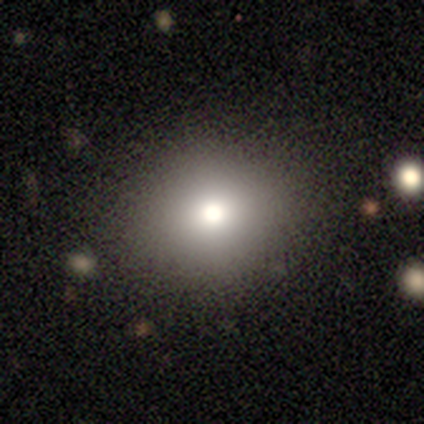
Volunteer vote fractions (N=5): A smooth galaxy with no disk features (100%) that is round (80%). Merging: none (100%).